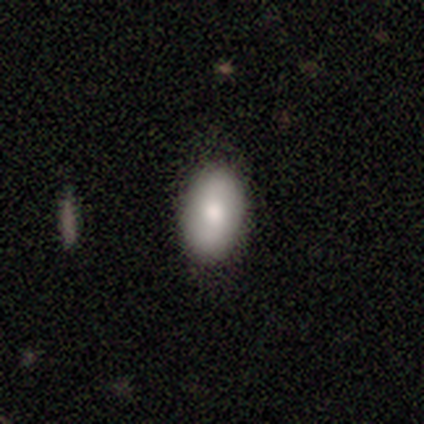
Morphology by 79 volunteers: A smooth galaxy with no disk features (80%) that is in between round and cigar-shaped (94%).

Vote fractions:
- Smooth or featured? smooth: 80% / featured or disk: 15% / star or artifact: 5%
- How rounded? in between: 94% / round: 6% / cigar-shaped: 0%
- Merging? none: 48% / minor disturbance: 5% / major disturbance: 1% / merger: 1%